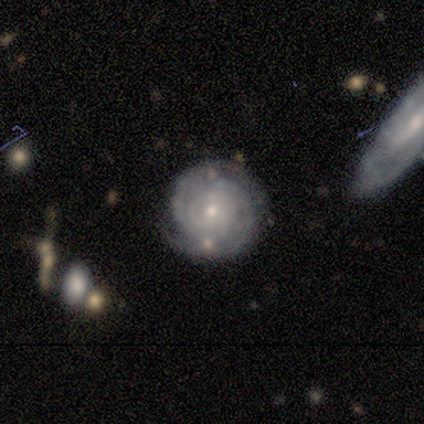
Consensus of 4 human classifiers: A featured or disk galaxy (100%) with a weak bar (50%, tied with no), tight (100%) spiral arms (100%) and a small central bulge (100%). Merging: none (100%).